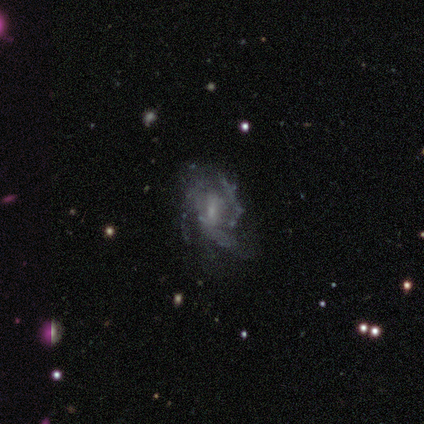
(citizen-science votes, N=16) Smooth or featured: featured or disk — 81% (star or artifact — 12%)
Edge-on disk: no — 100%
Bar: no — 54% (weak — 46%)
Spiral arms: yes — 62% (no — 38%)
Spiral winding: medium — 38% (tied with loose — 38%)
Spiral arm count: can't tell — 50% (3 — 25%)
Bulge size: moderate — 38% (tied with none — 38%)
Merging: none — 57% (minor disturbance — 21%)